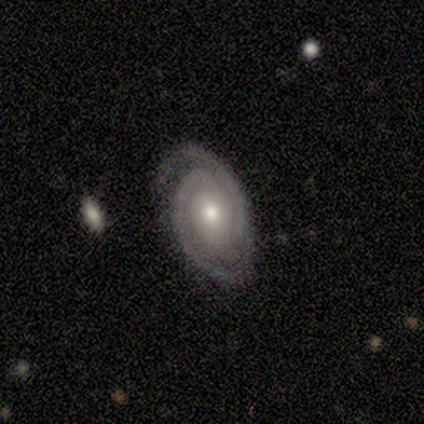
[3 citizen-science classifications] smooth-or-featured: featured or disk: 67% | smooth: 33% | star or artifact: 0%
  disk-edge-on: no: 100% | yes: 0%
    bar: no: 100% | strong: 0% | weak: 0%
    has-spiral-arms: yes: 100% | no: 0%
      spiral-winding: tight: 50% (tied) | medium: 50% (tied) | loose: 0%
      spiral-arm-count: 2: 100% | 1: 0% | 3: 0% | 4: 0% | more than 4: 0% | can't tell: 0%
    bulge-size: moderate: 50% (tied) | small: 50% (tied) | dominant: 0% | large: 0% | none: 0%
  merging: none: 67% | minor disturbance: 33% | major disturbance: 0% | merger: 0%